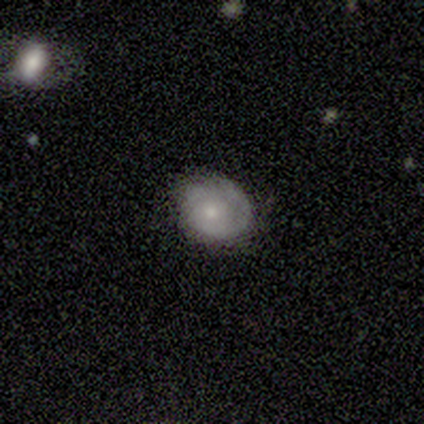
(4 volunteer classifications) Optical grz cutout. It shows a smooth galaxy with no disk features (75%) that is in between round and cigar-shaped (67%). Merging: none (50%, tied with minor disturbance).